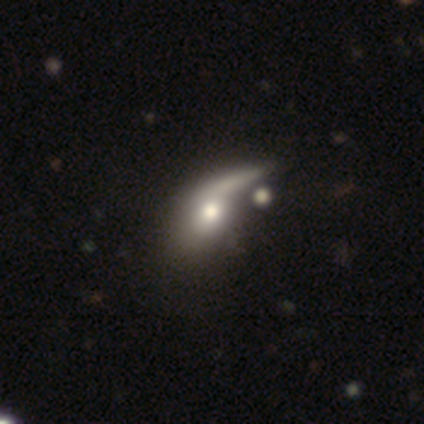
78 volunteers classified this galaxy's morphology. Smooth or featured: smooth — 53% (featured or disk — 42%)
How rounded: in between — 68% (round — 17%)
Merging: merger — 36% (major disturbance — 14%)